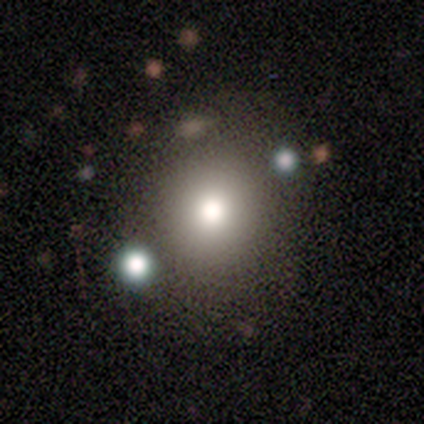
This appears to be a smooth galaxy with no disk features (100%) that is round (100%). Merging: none (80%).